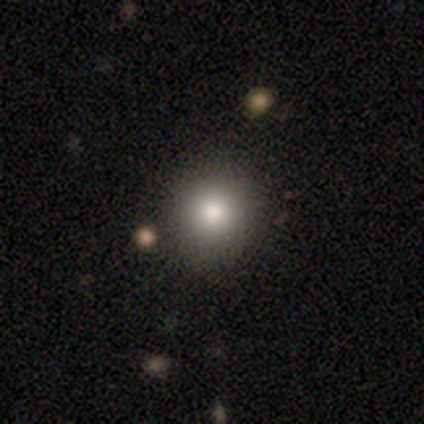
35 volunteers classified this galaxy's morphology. smooth-or-featured: smooth: 77% | featured or disk: 20% | star or artifact: 3%
  how-rounded: round: 96% | in between: 4% | cigar-shaped: 0%
  merging: none: 85% | minor disturbance: 9% | major disturbance: 3% | merger: 3%